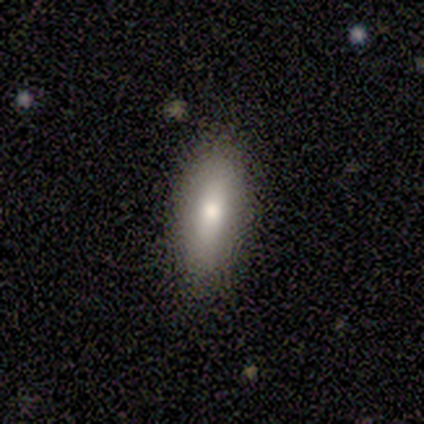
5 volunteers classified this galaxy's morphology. type=smooth (80%); roundness=in between (100%); merging=none (100%).